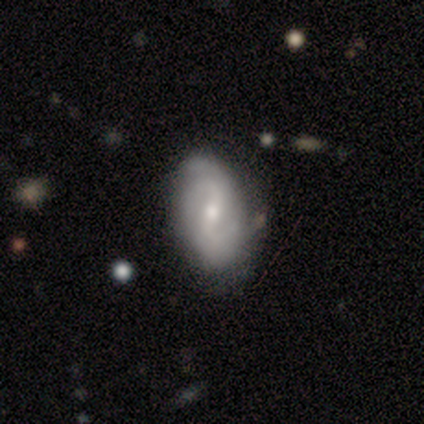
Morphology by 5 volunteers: A featured or disk galaxy (60%) with a weak bar (67%), medium (67%) spiral arms (100%) and a small central bulge (67%). Merging: none (75%).